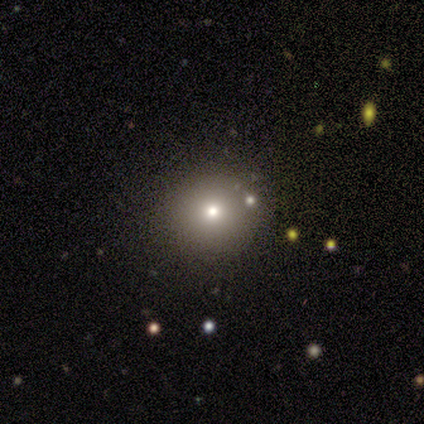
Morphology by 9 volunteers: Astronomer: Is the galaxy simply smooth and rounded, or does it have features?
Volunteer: smooth — 67%.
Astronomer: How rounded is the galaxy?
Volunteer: round — 100%.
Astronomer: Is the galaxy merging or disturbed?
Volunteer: none — 100%.